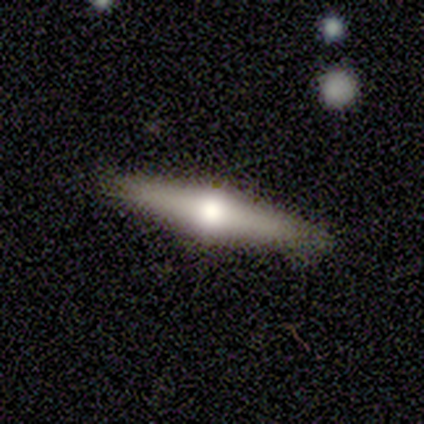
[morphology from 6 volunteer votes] type=featured or disk (83%); edge-on=yes (80%); edge-on bulge=rounded (100%); merging=none (100%).